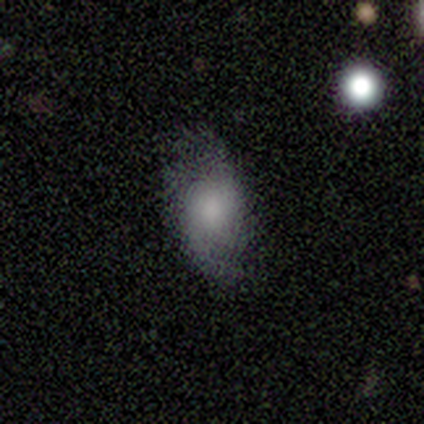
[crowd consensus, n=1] This is clearly a featured or disk galaxy (100%). It is clearly not viewed edge-on (100%). Bar: clearly strong (100%). Spiral arm pattern: clearly yes (100%). Spiral arm count: clearly can't tell (100%). Spiral winding: clearly medium (100%). Central bulge: clearly moderate (100%). Merging: clearly none (100%).